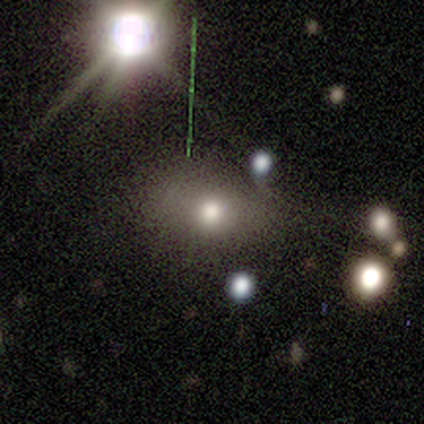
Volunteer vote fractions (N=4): Volunteers were most divided on "how rounded" (2-way tie): round: 50%, in between: 50%, cigar-shaped: 0%. More confident: merging — none (100%); smooth or featured — smooth (50%).